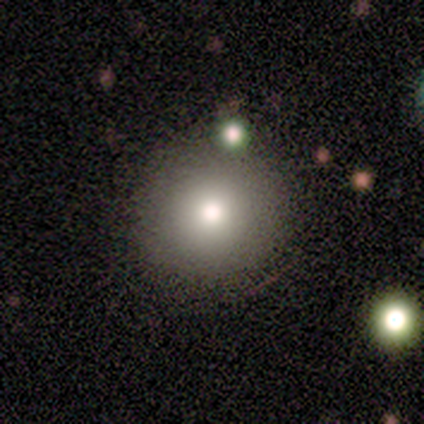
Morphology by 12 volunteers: Smooth or featured: smooth — 83% (star or artifact — 17%)
How rounded: round — 80% (in between — 20%)
Merging: none — 90% (minor disturbance — 10%)